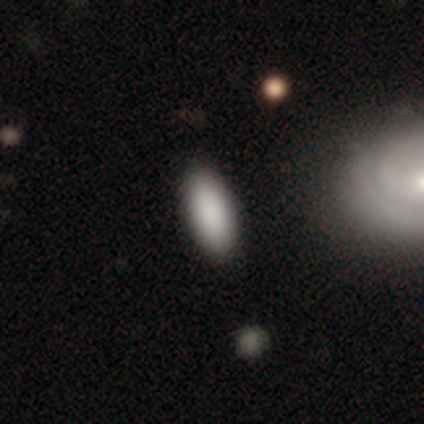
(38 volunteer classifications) This is clearly a smooth galaxy (97%). How rounded: clearly in between (89%). Merging: likely none (65%).